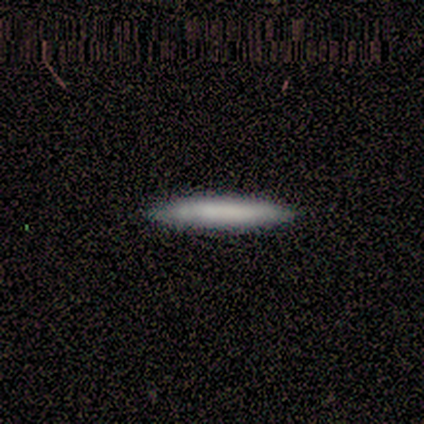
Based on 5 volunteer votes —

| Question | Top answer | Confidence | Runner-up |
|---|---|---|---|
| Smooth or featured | smooth | 80% | featured or disk (20%) |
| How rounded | cigar-shaped | 100% | — |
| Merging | none | 80% | minor disturbance (20%) |